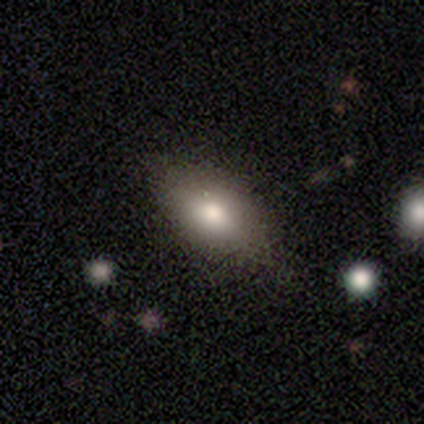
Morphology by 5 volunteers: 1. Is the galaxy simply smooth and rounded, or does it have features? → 60% smooth, 40% featured or disk, 0% star or artifact.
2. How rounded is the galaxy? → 67% in between, 33% cigar-shaped, 0% round.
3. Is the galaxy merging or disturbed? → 80% none, 20% minor disturbance, 0% major disturbance, 0% merger.